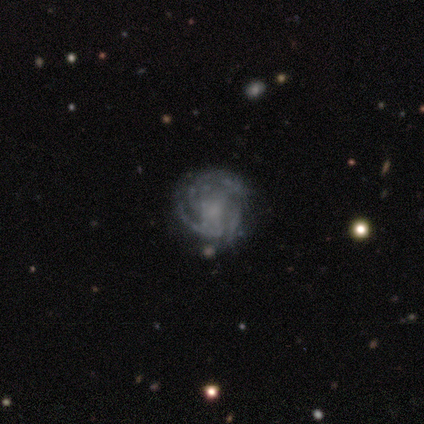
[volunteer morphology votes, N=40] Q: Smooth or featured?
A: featured or disk (75%); runner-up: star or artifact (15%)
Q: Edge-on disk?
A: no (100%)
Q: Bar?
A: no (73%); runner-up: weak (20%)
Q: Spiral arms?
A: yes (93%); runner-up: no (7%)
Q: Spiral winding?
A: tight (61%); runner-up: medium (32%)
Q: Spiral arm count?
A: can't tell (36%); runner-up: 3 (32%)
Q: Bulge size?
A: none (57%); runner-up: moderate (20%)
Q: Merging?
A: none (76%); runner-up: minor disturbance (21%)